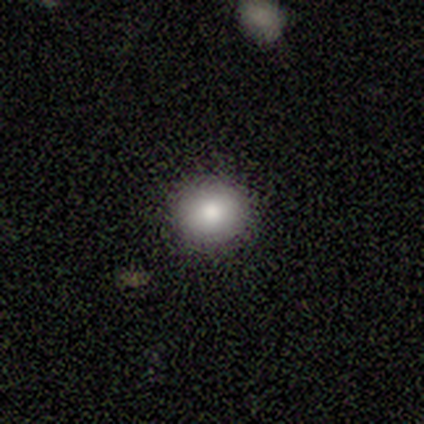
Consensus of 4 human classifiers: Morphology: type=smooth (100%); roundness=round (100%); merging=none (100%).